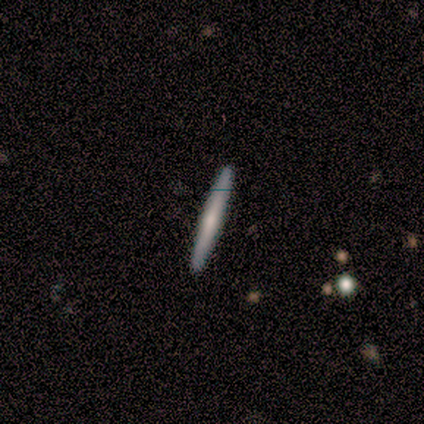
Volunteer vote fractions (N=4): Q: Smooth or featured?
A: smooth (75%); runner-up: featured or disk (25%)
Q: How rounded?
A: cigar-shaped (100%)
Q: Merging?
A: none (100%)